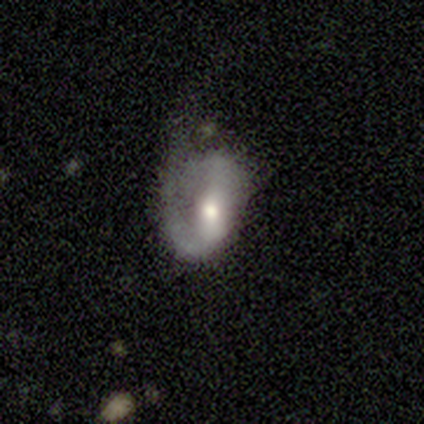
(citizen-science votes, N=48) This appears to be a featured or disk galaxy (54%) with no bar (42%), 1 (61%) tight (33%, tied with medium and loose) spiral arms (69%) and a moderate central bulge (65%). Merging: major disturbance (44%).